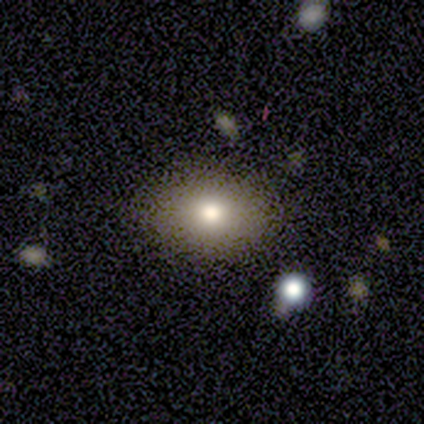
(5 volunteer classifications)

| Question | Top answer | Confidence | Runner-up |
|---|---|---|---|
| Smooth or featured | smooth | 100% | — |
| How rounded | in between | 80% | round (20%) |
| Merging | none | 100% | — |